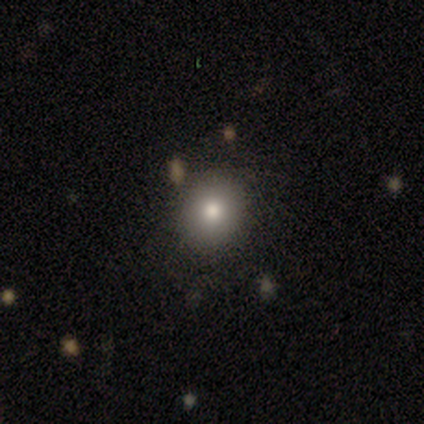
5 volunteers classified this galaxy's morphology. Smooth or featured? smooth (80%)
How rounded? round (75%)
Merging? none (100%)